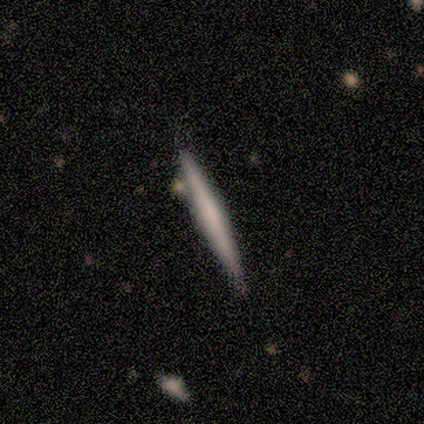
Overall: featured or disk (75%). Edge-on disk: yes (100%). Edge-on bulge: boxy (33%, tied with none and rounded). Merging: none (100%).